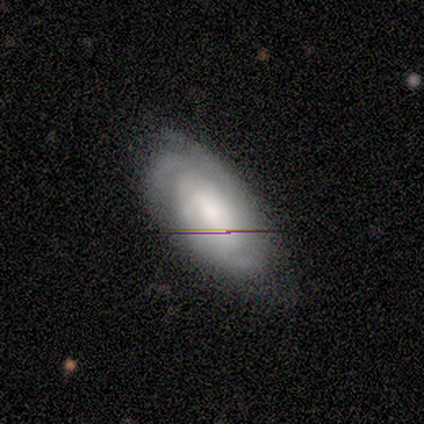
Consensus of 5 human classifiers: This is clearly a featured or disk galaxy (80%). It is clearly not viewed edge-on (100%). Bar: possibly no (50%). Spiral arm pattern: likely yes (75%). Spiral arm count: likely can't tell (67%). Spiral winding: likely tight (67%). Central bulge: possibly moderate (50%). Merging: likely none (60%).